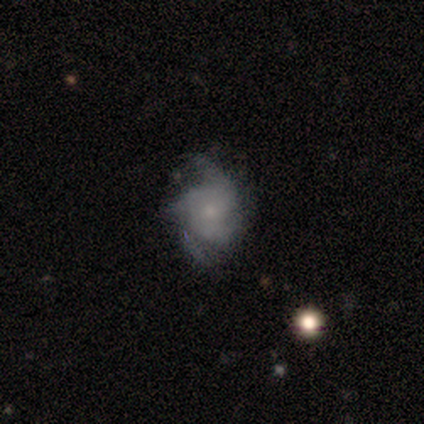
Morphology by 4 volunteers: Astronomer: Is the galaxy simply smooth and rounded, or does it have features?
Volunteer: featured or disk — 100%.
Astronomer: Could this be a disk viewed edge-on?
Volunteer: no — 100%.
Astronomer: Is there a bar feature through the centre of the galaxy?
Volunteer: no — 75%.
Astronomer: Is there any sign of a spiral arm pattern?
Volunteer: yes — 50%, tied with no at 50%.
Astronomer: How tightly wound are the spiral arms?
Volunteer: loose — 100%.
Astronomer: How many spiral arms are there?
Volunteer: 1 — 50%, tied with 4 at 50%.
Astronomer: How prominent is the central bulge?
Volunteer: small — 100%.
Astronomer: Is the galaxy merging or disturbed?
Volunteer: major disturbance — 50%.